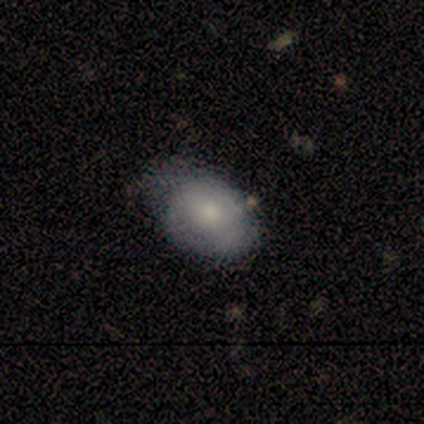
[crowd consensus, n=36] smooth_or_featured: smooth (p=0.64) [alt: featured or disk p=0.25]
how_rounded: in between (p=0.70) [alt: round p=0.30]
merging: none (p=0.53) [alt: minor disturbance p=0.34]